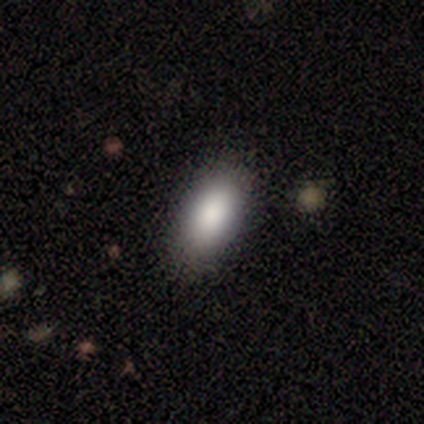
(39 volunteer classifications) This is clearly a smooth galaxy (90%). How rounded: clearly in between (97%). Merging: clearly none (92%).